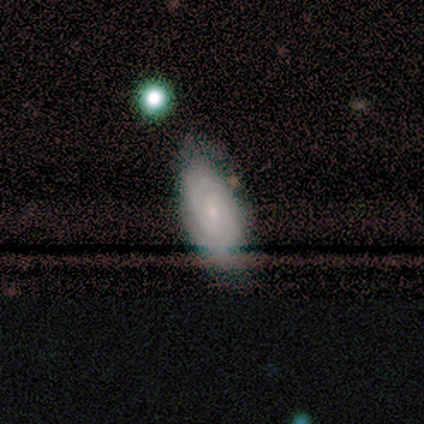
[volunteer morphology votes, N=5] smooth 60%, featured or disk 40%, star or artifact 0%. Down the decision tree: how rounded — in between (100%); merging — none (60%).